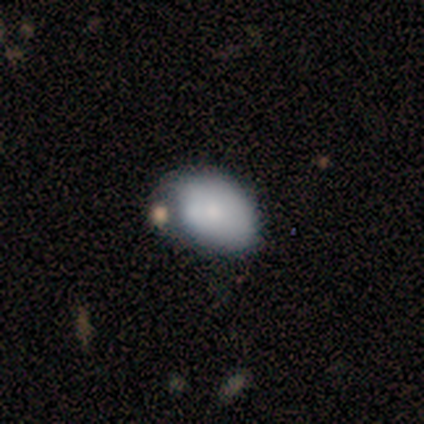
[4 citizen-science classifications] Morphology: type=smooth (75%); roundness=in between (67%); merging=minor disturbance (50%).